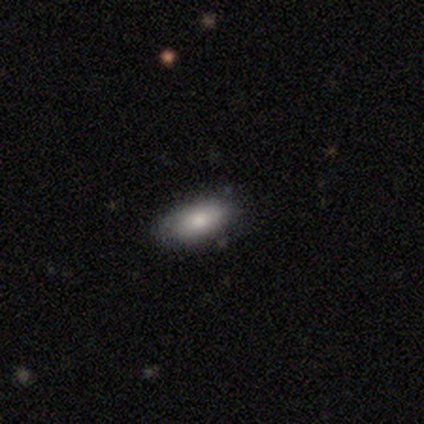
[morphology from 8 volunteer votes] A smooth galaxy with no disk features (100%) that is in between round and cigar-shaped (100%).

Vote fractions:
- Smooth or featured? smooth: 100% / featured or disk: 0% / star or artifact: 0%
- How rounded? in between: 100% / round: 0% / cigar-shaped: 0%
- Merging? none: 75% / minor disturbance: 12% / major disturbance: 12% / merger: 0%